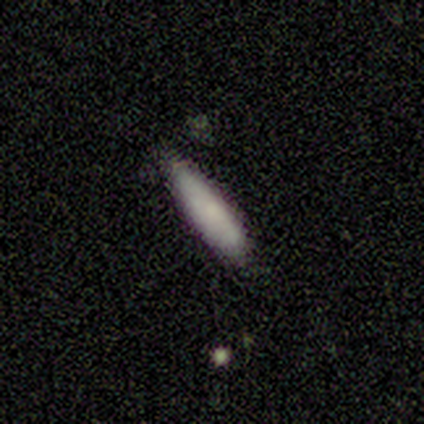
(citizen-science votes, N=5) smooth 60%, featured or disk 20%, star or artifact 20%. Down the decision tree: how rounded — cigar-shaped (100%); merging — minor disturbance (50%).